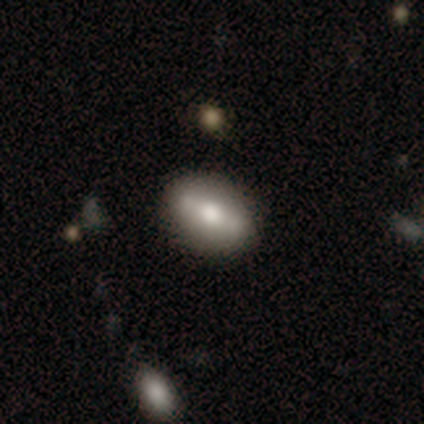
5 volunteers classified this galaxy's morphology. This appears to be a smooth galaxy with no disk features (60%) that is in between round and cigar-shaped (100%). Merging: none (80%).